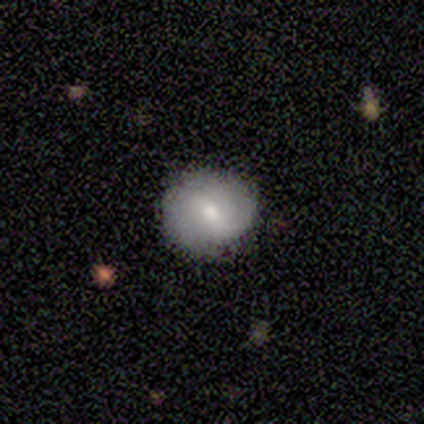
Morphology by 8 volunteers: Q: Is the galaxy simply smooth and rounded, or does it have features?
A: smooth — 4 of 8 (50%, tied with featured or disk).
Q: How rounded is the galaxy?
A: round — 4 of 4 (100%).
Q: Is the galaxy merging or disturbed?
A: none — 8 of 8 (100%).